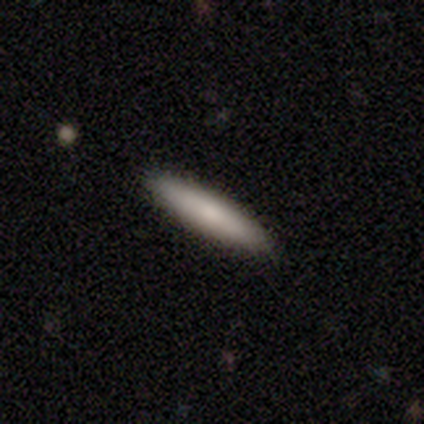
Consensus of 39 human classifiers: Overall: smooth (77%). How rounded: cigar-shaped (87%). Merging: none (94%).